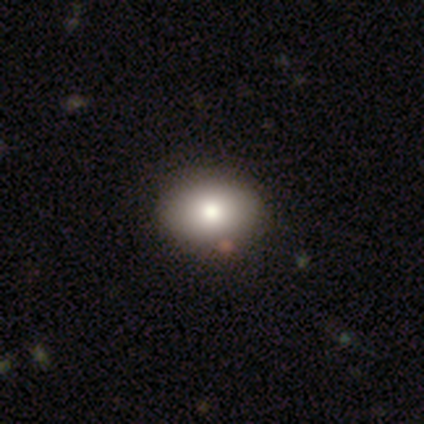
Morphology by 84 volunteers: smooth 75%, star or artifact 18%, featured or disk 7%. Down the decision tree: how rounded — in between (67%); merging — none (91%).